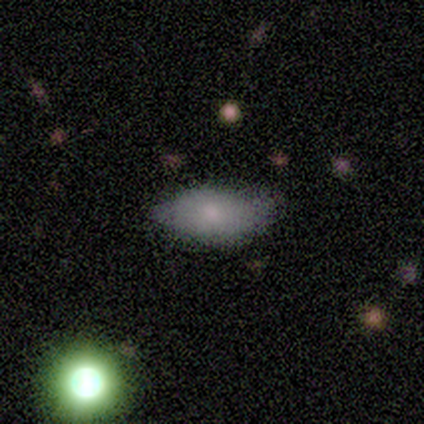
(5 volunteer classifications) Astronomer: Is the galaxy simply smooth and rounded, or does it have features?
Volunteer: smooth — 80%.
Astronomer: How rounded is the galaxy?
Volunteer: in between — 100%.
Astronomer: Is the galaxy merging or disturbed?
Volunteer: minor disturbance — 60% (runner-up: none, 40%).